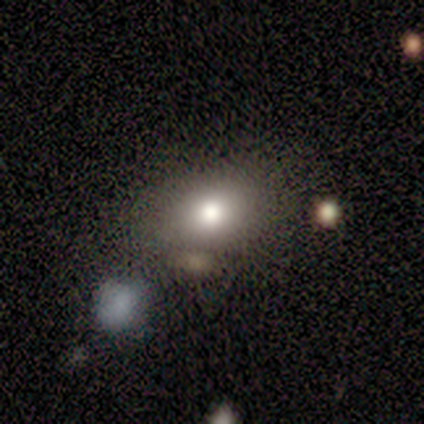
Q: Smooth or featured?
A: smooth (80%); runner-up: star or artifact (20%)
Q: How rounded?
A: in between (100%)
Q: Merging?
A: none (50%); tied with: minor disturbance (50%)